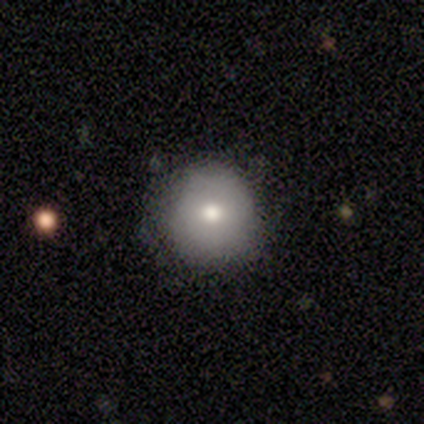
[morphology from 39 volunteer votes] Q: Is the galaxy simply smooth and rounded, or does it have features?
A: smooth — 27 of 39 (69%).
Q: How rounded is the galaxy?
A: round — 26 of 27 (96%).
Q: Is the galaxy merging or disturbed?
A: none — 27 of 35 (77%).